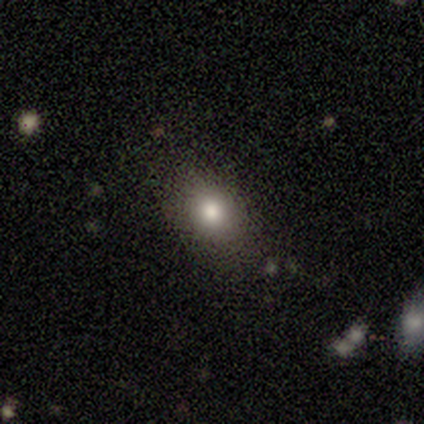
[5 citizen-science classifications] Morphology: type=smooth (100%); roundness=in between (60%); merging=none (80%).